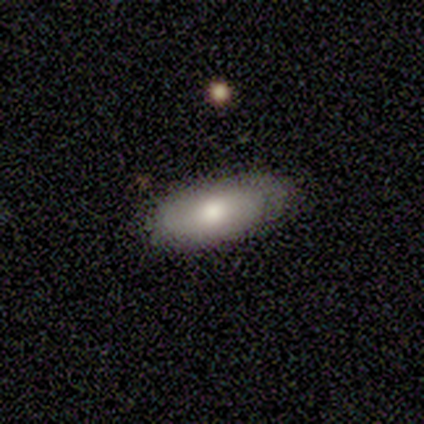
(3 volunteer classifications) Smooth or featured: smooth — 100%
How rounded: in between — 67% (round — 33%)
Merging: none — 67% (minor disturbance — 33%)